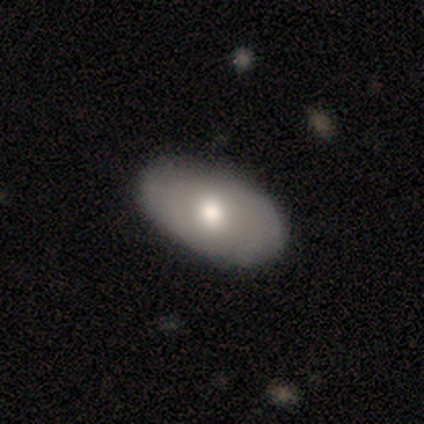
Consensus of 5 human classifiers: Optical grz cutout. It shows a smooth galaxy with no disk features (80%) that is in between round and cigar-shaped (100%). Merging: none (80%).